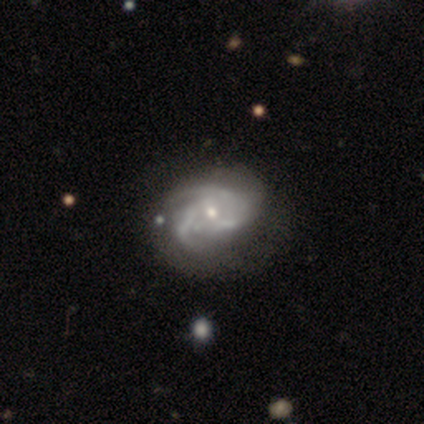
Q: Smooth or featured?
A: featured or disk (95%); runner-up: smooth (5%)
Q: Edge-on disk?
A: no (100%)
Q: Bar?
A: no (71%); runner-up: weak (26%)
Q: Spiral arms?
A: yes (77%); runner-up: no (23%)
Q: Spiral winding?
A: tight (41%); tied with: medium (41%)
Q: Spiral arm count?
A: 3 (56%); runner-up: 2 (26%)
Q: Bulge size?
A: small (69%); runner-up: moderate (31%)
Q: Merging?
A: none (62%); runner-up: minor disturbance (22%)